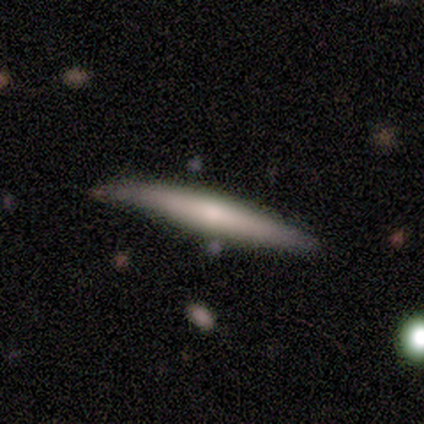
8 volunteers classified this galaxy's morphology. This is possibly a smooth galaxy (50%, tied with featured or disk). How rounded: clearly cigar-shaped (100%). Merging: likely none (75%).